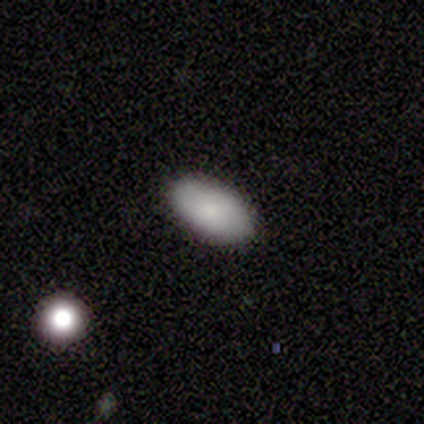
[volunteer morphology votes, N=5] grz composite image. It shows a smooth galaxy with no disk features (60%) that is in between round and cigar-shaped (100%). Merging: none (100%).